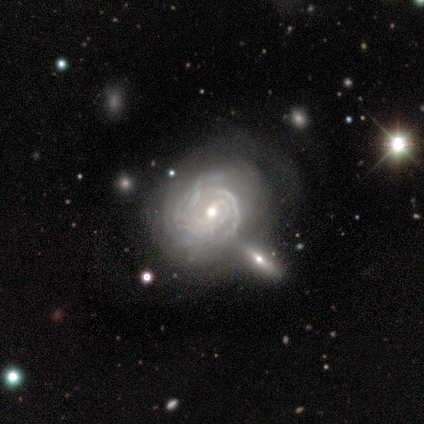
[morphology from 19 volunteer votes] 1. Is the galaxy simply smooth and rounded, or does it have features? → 95% featured or disk, 5% smooth, 0% star or artifact.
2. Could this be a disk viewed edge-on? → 100% no, 0% yes.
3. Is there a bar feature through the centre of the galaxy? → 50% no, 28% strong, 22% weak.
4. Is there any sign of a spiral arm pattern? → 100% yes, 0% no.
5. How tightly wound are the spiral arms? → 78% tight, 22% medium, 0% loose.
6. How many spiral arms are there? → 33% 2, 28% can't tell, 22% 3, 6% 1, 6% 4, 6% more than 4.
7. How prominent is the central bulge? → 61% moderate, 33% small, 6% large, 0% dominant, 0% none.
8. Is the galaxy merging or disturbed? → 42% none, 21% minor disturbance, 21% major disturbance, 16% merger.